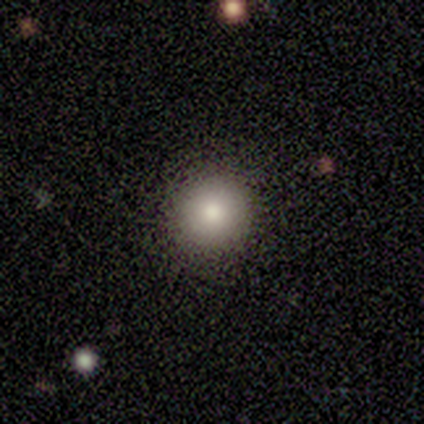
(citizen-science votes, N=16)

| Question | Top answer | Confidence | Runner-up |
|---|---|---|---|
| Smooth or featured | smooth | 88% | featured or disk (6%) |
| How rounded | round | 79% | in between (21%) |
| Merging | none | 87% | minor disturbance (7%) |